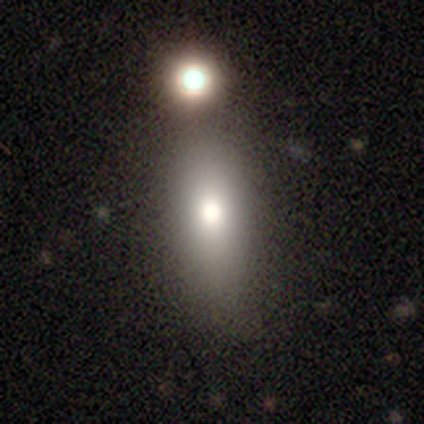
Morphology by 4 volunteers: Smooth or featured? smooth (50%, tied with featured or disk)
How rounded? in between (100%)
Merging? none (75%)